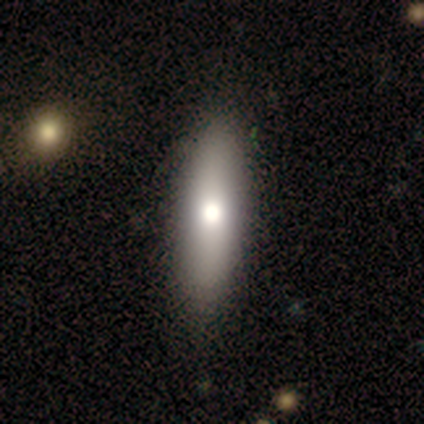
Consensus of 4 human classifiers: smooth-or-featured: smooth: 100% | featured or disk: 0% | star or artifact: 0%
  how-rounded: cigar-shaped: 50% | round: 25% | in between: 25%
  merging: none: 100% | minor disturbance: 0% | major disturbance: 0% | merger: 0%